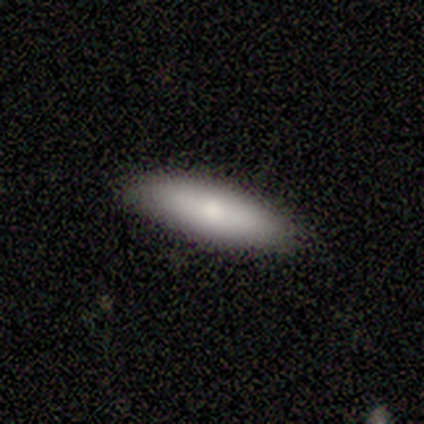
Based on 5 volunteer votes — Morphology: type=smooth (80%); roundness=cigar-shaped (75%); merging=none (80%).